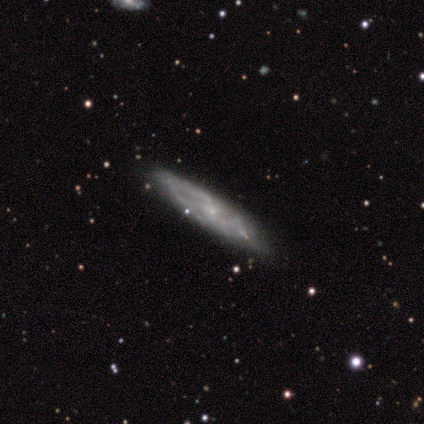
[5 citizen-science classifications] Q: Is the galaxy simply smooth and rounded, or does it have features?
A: featured or disk — 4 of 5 (80%).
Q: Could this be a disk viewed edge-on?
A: no — 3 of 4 (75%).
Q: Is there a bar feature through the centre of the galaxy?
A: no — 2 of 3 (67%).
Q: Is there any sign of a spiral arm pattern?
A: yes — 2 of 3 (67%).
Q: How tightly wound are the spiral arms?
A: tight — 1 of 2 (50%, tied with loose).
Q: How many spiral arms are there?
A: can't tell — 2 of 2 (100%).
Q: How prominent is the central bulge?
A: moderate — 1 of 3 (33%, tied with small and none).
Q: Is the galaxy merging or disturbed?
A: none — 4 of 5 (80%).